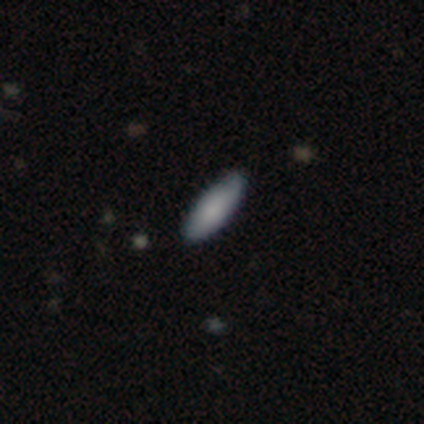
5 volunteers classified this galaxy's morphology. smooth_or_featured: smooth (p=1.00)
how_rounded: in between (p=0.80) [alt: cigar-shaped p=0.20]
merging: none (p=0.80) [alt: minor disturbance p=0.20]